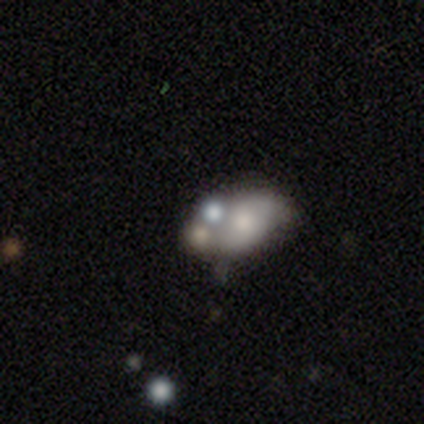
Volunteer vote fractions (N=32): Q: Smooth or featured?
A: smooth (53%); runner-up: featured or disk (44%)
Q: How rounded?
A: in between (65%); runner-up: round (29%)
Q: Merging?
A: merger (68%)